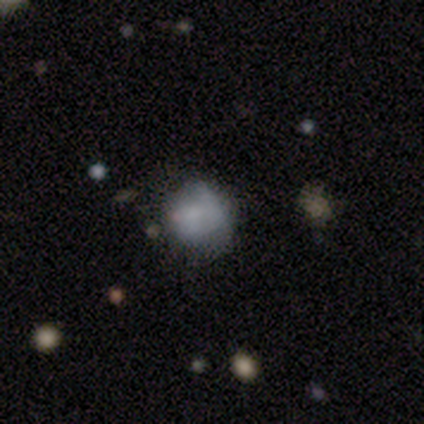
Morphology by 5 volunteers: type=smooth (80%); roundness=round (100%); merging=none (60%).